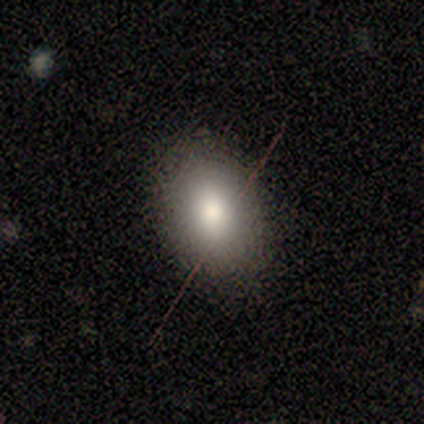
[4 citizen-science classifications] A smooth galaxy with no disk features (75%) that is in between round and cigar-shaped (100%).

Vote fractions:
- Smooth or featured? smooth: 75% / featured or disk: 25% / star or artifact: 0%
- How rounded? in between: 100% / round: 0% / cigar-shaped: 0%
- Merging? none: 100% / minor disturbance: 0% / major disturbance: 0% / merger: 0%